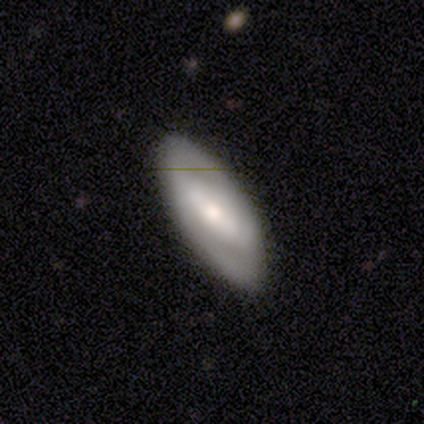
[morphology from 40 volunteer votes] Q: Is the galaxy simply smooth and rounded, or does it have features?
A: featured or disk — 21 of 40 (52%).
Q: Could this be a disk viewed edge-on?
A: no — 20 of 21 (95%).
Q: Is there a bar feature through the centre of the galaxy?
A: strong — 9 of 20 (45%).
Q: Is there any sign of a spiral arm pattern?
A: yes — 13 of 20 (65%).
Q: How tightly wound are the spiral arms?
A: medium — 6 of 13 (46%).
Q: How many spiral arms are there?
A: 2 — 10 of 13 (77%).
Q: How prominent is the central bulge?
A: moderate — 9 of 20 (45%).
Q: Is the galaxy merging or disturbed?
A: none — 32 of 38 (84%).